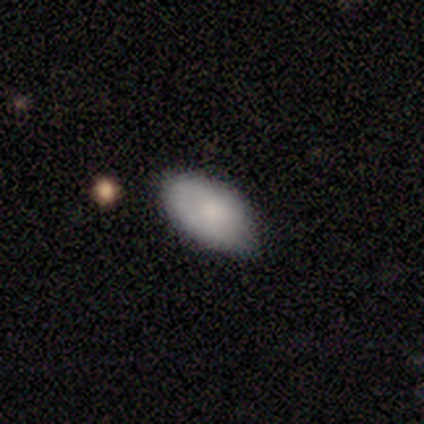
This appears to be a smooth galaxy with no disk features (100%) that is in between round and cigar-shaped (100%). Merging: none (75%).